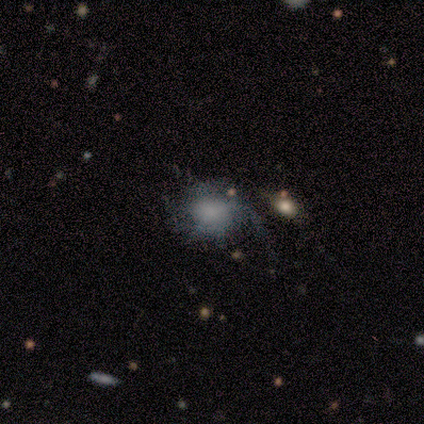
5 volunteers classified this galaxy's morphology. Volunteers were most divided on "spiral winding": medium: 60%, loose: 40%, tight: 0%. More confident: smooth or featured — featured or disk (100%); edge-on disk — no (100%); bar — no (100%); spiral arms — yes (100%); spiral arm count — 1 (80%); bulge size — none (60%); merging — none (60%).